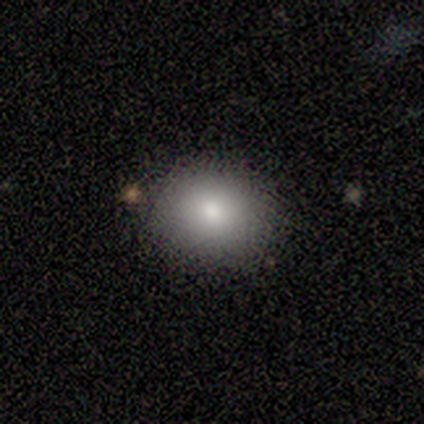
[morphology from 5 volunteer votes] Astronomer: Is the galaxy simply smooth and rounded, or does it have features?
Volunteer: smooth — 80%.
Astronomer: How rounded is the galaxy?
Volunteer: round — 50%, tied with in between at 50%.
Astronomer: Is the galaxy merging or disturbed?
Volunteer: none — 60%.